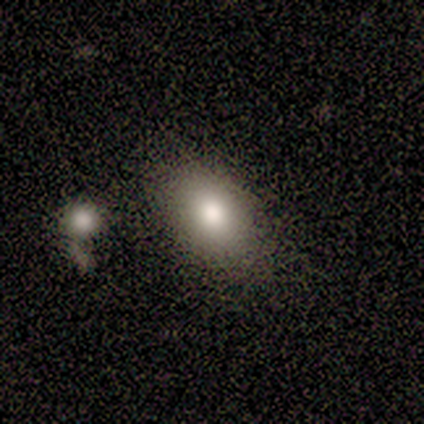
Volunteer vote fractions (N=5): smooth_or_featured: smooth (p=0.80) [alt: star or artifact p=0.20]
how_rounded: in between (p=1.00)
merging: none (p=0.75) [alt: merger p=0.25]